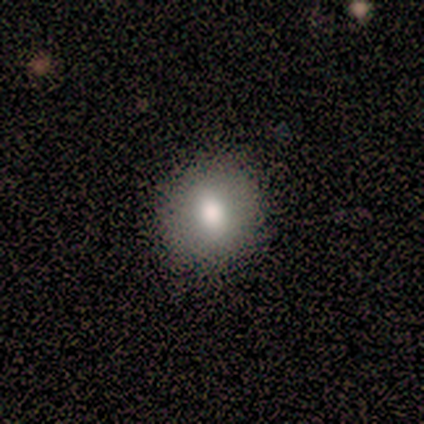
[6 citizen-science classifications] Consensus on every question: smooth or featured — smooth (100%); how rounded — round (100%); merging — none (100%).